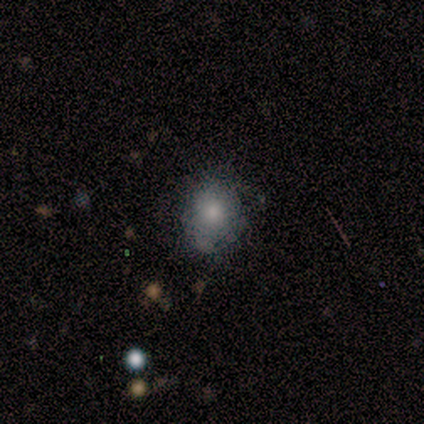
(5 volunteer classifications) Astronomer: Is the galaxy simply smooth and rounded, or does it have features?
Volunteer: smooth — 60%.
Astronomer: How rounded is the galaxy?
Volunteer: round — 67%.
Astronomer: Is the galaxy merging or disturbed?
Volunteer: none — 50%, tied with minor disturbance at 50%.